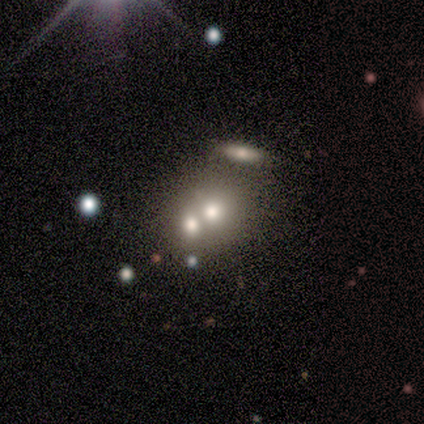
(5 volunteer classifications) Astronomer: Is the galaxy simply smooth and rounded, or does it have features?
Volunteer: featured or disk — 40%, tied with star or artifact at 40%.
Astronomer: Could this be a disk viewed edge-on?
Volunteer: no — 100%.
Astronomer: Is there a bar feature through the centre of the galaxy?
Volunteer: no — 100%.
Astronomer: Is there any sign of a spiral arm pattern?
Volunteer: no — 100%.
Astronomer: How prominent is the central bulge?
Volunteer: moderate — 50%, tied with small at 50%.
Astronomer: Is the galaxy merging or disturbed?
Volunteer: minor disturbance — 33%, tied with major disturbance and merger at 33%.